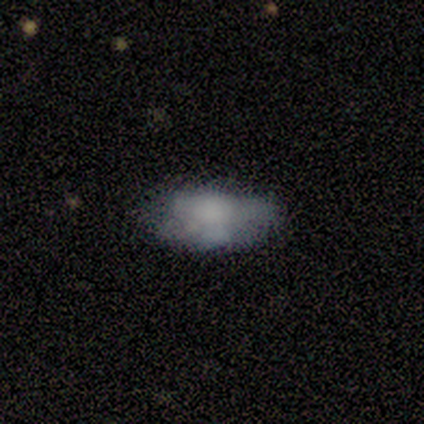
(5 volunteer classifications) smooth_or_featured: smooth (p=0.60) [alt: featured or disk p=0.40]
how_rounded: in between (p=1.00)
merging: minor disturbance (p=0.60) [alt: none p=0.20]